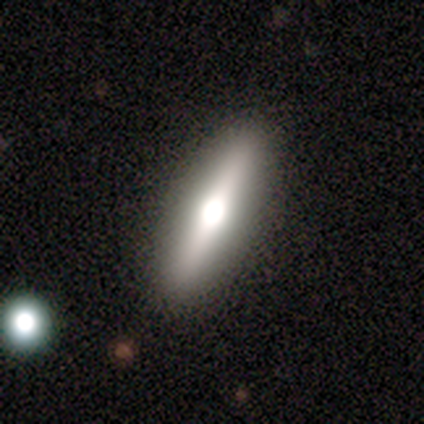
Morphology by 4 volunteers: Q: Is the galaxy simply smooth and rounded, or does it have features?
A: featured or disk — 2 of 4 (50%).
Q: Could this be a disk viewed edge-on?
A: yes — 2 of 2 (100%).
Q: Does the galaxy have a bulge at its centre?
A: boxy — 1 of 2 (50%, tied with rounded).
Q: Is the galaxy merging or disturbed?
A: none — 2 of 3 (67%).